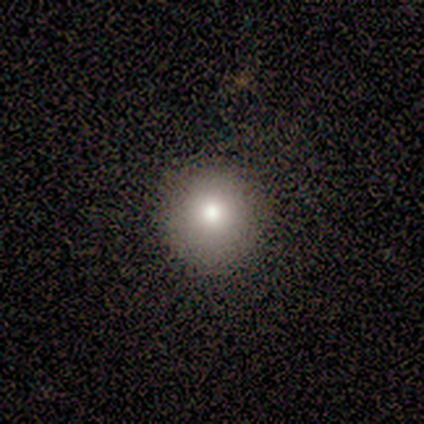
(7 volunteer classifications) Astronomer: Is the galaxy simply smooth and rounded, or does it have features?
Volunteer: smooth — 71%.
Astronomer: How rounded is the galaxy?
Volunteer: round — 100%.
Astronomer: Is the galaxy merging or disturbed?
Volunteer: none — 80%.